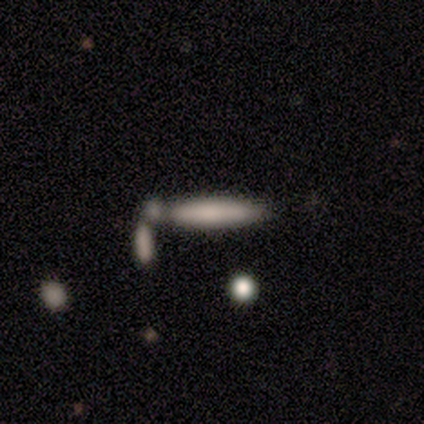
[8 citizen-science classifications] Smooth or featured?
  - smooth: 75% *
  - featured or disk: 12%
  - star or artifact: 12%
How rounded?
  - cigar-shaped: 100% *
  - round: 0%
  - in between: 0%
Merging?
  - merger: 57% *
  - none: 29%
  - major disturbance: 14%
  - minor disturbance: 0%